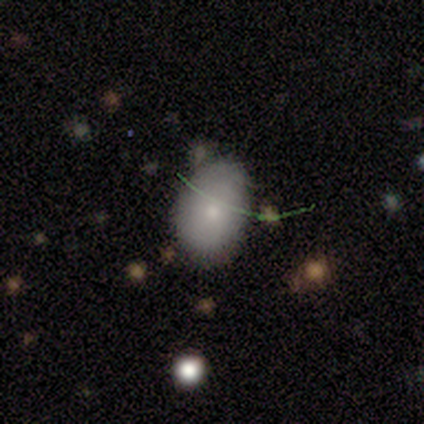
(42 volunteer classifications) Smooth or featured: smooth — 64% (featured or disk — 26%)
How rounded: in between — 89% (round — 11%)
Merging: none — 45% (minor disturbance — 34%)